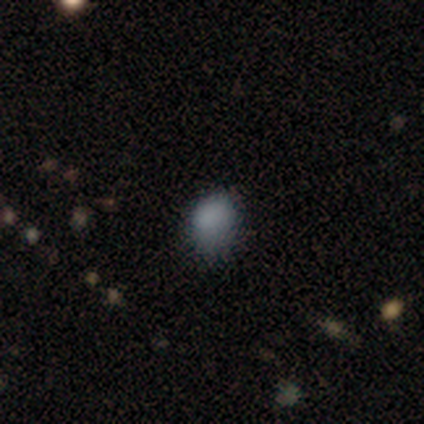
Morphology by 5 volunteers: type=smooth (100%); roundness=round (60%); merging=none (80%).